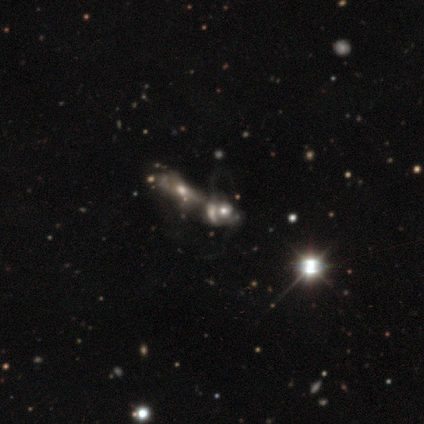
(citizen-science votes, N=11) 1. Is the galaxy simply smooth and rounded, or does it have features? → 64% featured or disk, 27% star or artifact, 9% smooth.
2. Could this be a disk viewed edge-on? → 100% no, 0% yes.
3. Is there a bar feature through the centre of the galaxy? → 86% no, 14% strong, 0% weak.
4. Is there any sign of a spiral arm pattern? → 57% yes, 43% no.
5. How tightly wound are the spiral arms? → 50% medium (tied), 50% loose (tied), 0% tight.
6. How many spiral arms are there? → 75% 2, 25% can't tell, 0% 1, 0% 3, 0% 4, 0% more than 4.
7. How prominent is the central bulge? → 86% moderate, 14% none, 0% dominant, 0% large, 0% small.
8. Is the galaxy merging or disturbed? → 100% merger, 0% none, 0% minor disturbance, 0% major disturbance.